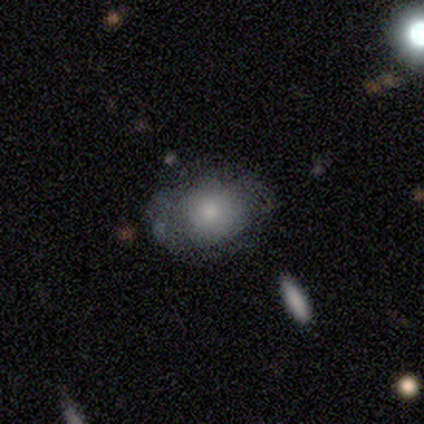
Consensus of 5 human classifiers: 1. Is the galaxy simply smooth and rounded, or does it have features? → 80% smooth, 20% star or artifact, 0% featured or disk.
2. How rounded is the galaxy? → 50% in between, 25% round, 25% cigar-shaped.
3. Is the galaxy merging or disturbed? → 50% minor disturbance, 25% none, 25% merger, 0% major disturbance.